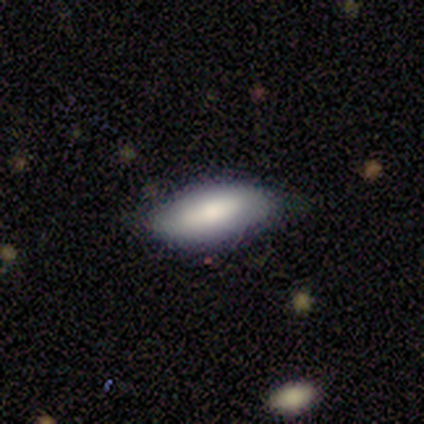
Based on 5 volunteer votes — Overall: smooth (80%). How rounded: in between (100%). Merging: none (80%).